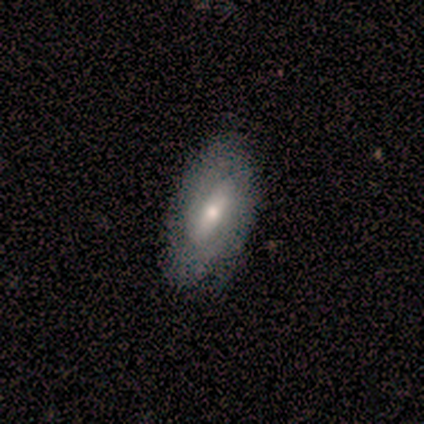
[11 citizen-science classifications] Smooth or featured? 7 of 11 (64%) said featured or disk. Edge-on disk? 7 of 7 (100%) said no. Bar? 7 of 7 (100%) said strong. Spiral arms? 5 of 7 (71%) said yes. Spiral winding? 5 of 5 (100%) said tight. Spiral arm count? 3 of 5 (60%) said 2. Bulge size? 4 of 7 (57%) said moderate. Merging? 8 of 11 (73%) said none.